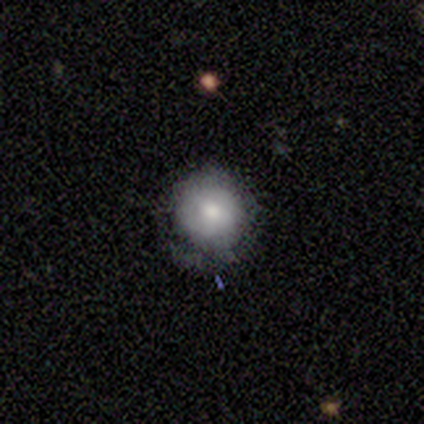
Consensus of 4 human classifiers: This appears to be a smooth galaxy with no disk features (75%) that is round (67%). Merging: none (75%).